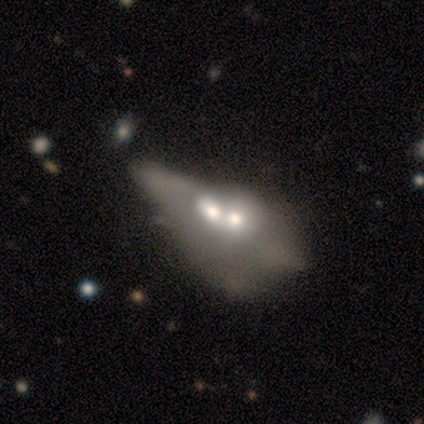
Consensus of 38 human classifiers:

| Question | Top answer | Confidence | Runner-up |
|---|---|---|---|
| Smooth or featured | featured or disk | 63% | smooth (34%) |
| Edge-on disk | no | 75% | yes (25%) |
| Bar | no | 100% | — |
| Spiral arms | no | 100% | — |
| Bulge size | moderate | 61% | large (17%) |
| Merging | merger | 73% | major disturbance (14%) |